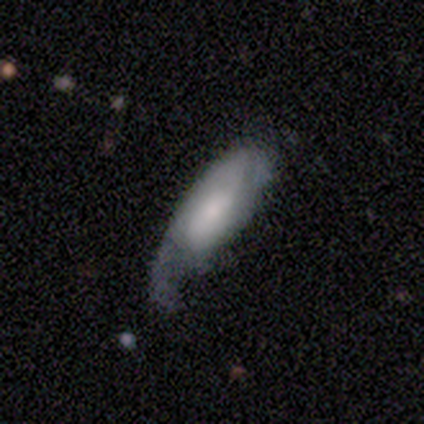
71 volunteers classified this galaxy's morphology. Volunteers were most divided on "merging" (2-way tie): minor disturbance: 39%, major disturbance: 39%, none: 22%, merger: 0%. Remaining: edge-on disk — no (83%); spiral arms — yes (83%); bar — no (70%); smooth or featured — featured or disk (51%); spiral arm count — 2 (48%); spiral winding — medium (44%); bulge size — moderate (43%).